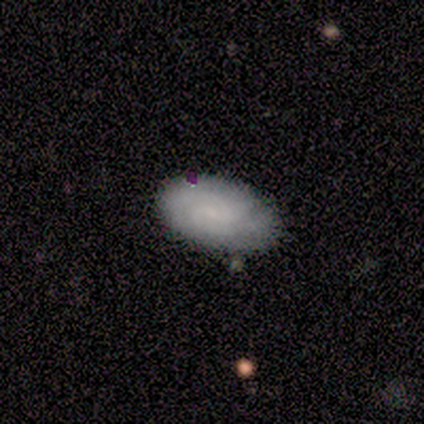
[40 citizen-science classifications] Smooth or featured: featured or disk — 52% (smooth — 42%)
Edge-on disk: no — 100%
Bar: weak — 48% (tied with no — 48%)
Spiral arms: yes — 95% (no — 5%)
Spiral winding: medium — 50% (tight — 45%)
Spiral arm count: 2 — 60% (can't tell — 30%)
Bulge size: small — 67% (none — 29%)
Merging: none — 84% (minor disturbance — 13%)